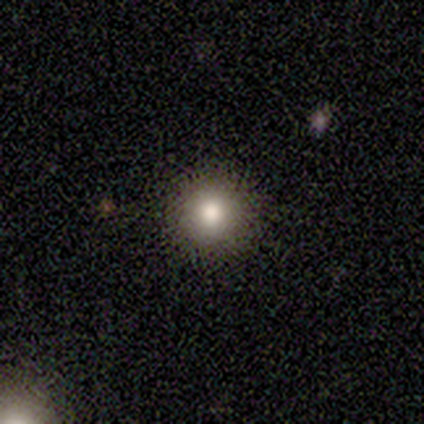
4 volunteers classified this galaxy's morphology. smooth 75%, star or artifact 25%, featured or disk 0%. Down the decision tree: how rounded — round (67%); merging — none (67%).